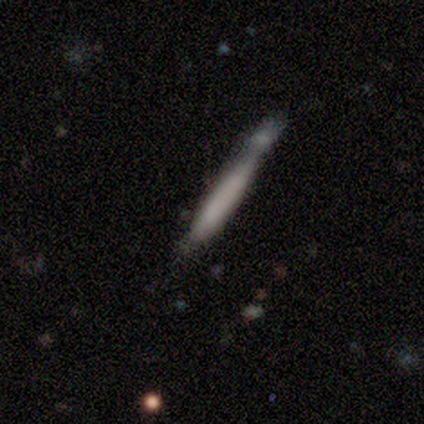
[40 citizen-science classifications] Morphology: type=smooth (72%); roundness=cigar-shaped (97%); merging=none (32%, tied with merger).